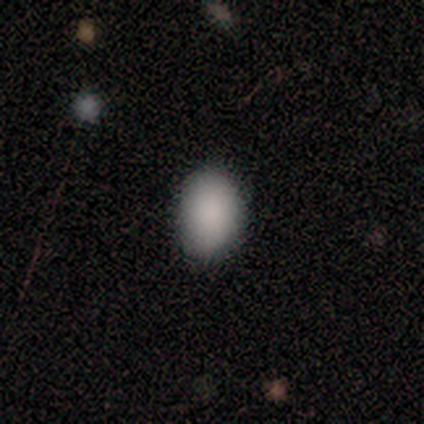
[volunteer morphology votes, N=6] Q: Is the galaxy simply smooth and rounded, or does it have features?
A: smooth — 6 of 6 (100%).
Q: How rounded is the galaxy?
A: in between — 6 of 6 (100%).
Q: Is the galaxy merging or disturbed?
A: none — 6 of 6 (100%).